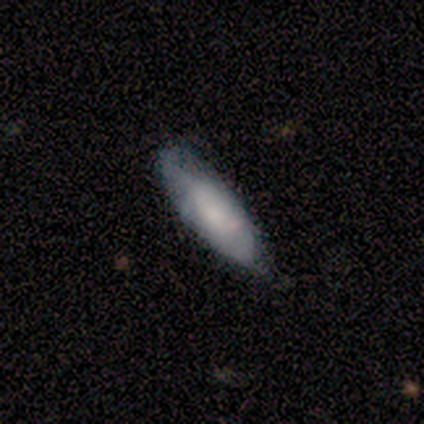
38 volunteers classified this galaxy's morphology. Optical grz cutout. It shows a smooth galaxy with no disk features (63%) that is in between round and cigar-shaped (62%). Merging: none (50%).